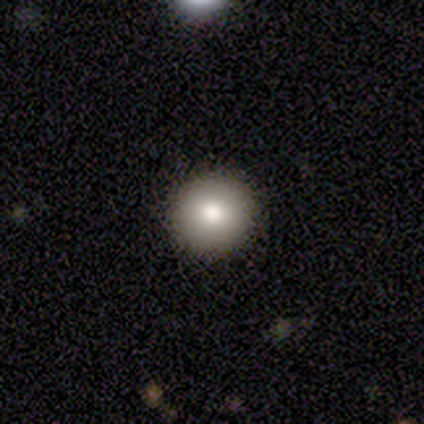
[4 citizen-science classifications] This is likely a smooth galaxy (75%). How rounded: clearly round (100%). Merging: clearly none (100%).